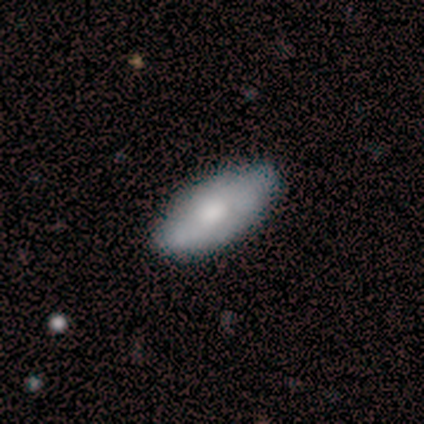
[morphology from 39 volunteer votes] Volunteers were most divided on "smooth or featured": smooth: 62%, featured or disk: 36%, star or artifact: 3%. More confident: how rounded — in between (96%); merging — none (58%).